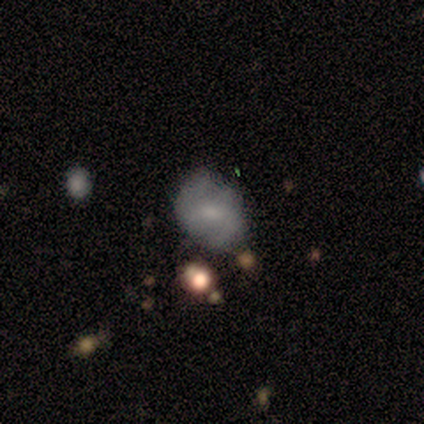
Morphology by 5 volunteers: This is clearly a smooth galaxy (100%). How rounded: likely in between (60%). Merging: clearly minor disturbance (80%).